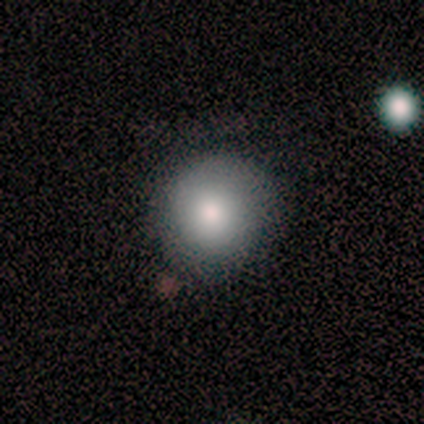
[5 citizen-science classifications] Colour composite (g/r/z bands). It shows a smooth galaxy with no disk features (80%) that is round (100%). Merging: none (60%).